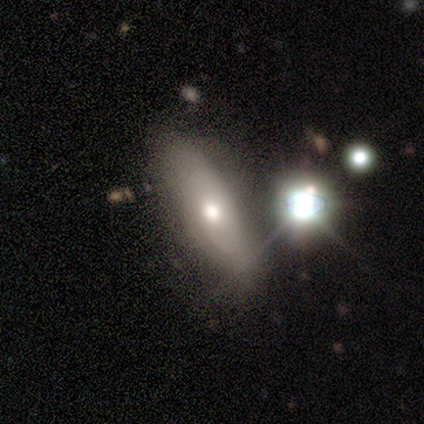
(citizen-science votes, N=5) smooth 40% (tied), star or artifact 40% (tied), featured or disk 20%. Down the decision tree: how rounded — in between (50%, tied with cigar-shaped); merging — none (100%).